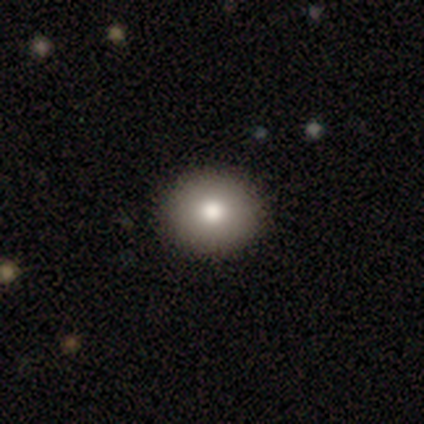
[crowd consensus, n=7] smooth-or-featured: smooth: 71% | featured or disk: 14% | star or artifact: 14%
  how-rounded: round: 60% | in between: 40% | cigar-shaped: 0%
  merging: none: 83% | minor disturbance: 17% | major disturbance: 0% | merger: 0%